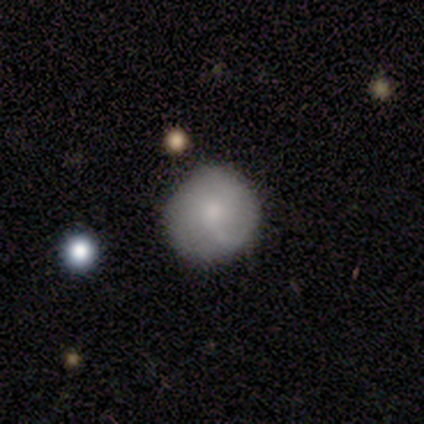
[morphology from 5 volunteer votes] smooth_or_featured: smooth (p=0.80) [alt: star or artifact p=0.20]
how_rounded: round (p=1.00)
merging: none (p=1.00)